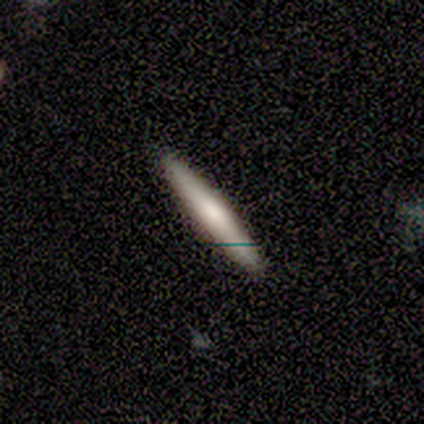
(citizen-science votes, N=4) This appears to be a smooth galaxy with no disk features (75%) that is cigar-shaped (100%). Merging: none (75%).